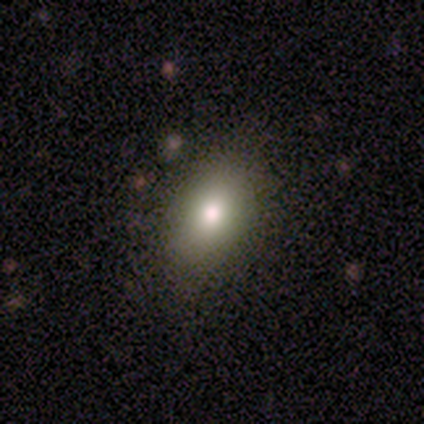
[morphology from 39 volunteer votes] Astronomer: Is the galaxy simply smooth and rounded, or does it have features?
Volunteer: smooth — 87%.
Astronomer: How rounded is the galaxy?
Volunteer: in between — 94%.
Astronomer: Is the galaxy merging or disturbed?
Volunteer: none — 86%.